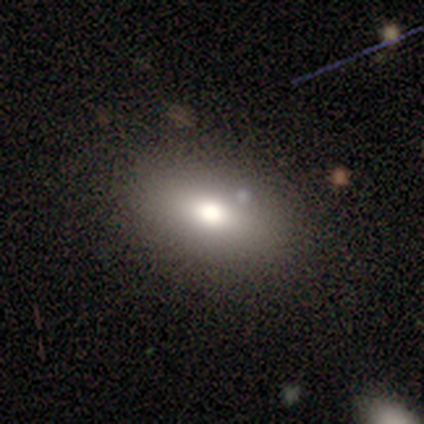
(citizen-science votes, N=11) Smooth or featured? smooth (82%)
How rounded? in between (100%)
Merging? none (100%)